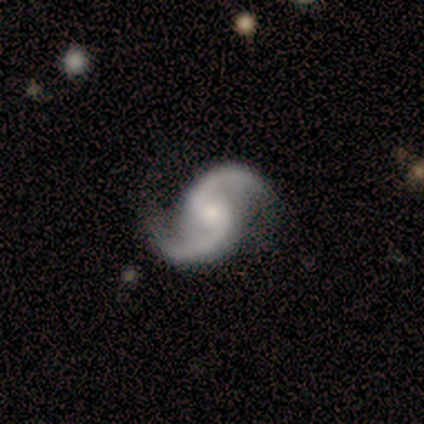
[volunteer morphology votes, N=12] Smooth or featured? 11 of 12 (92%) said featured or disk. Edge-on disk? 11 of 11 (100%) said no. Bar? 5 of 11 (45%) said weak. Spiral arms? 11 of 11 (100%) said yes. Spiral winding? 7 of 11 (64%) said loose. Spiral arm count? 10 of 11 (91%) said 2. Bulge size? 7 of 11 (64%) said small. Merging? 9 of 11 (82%) said none.